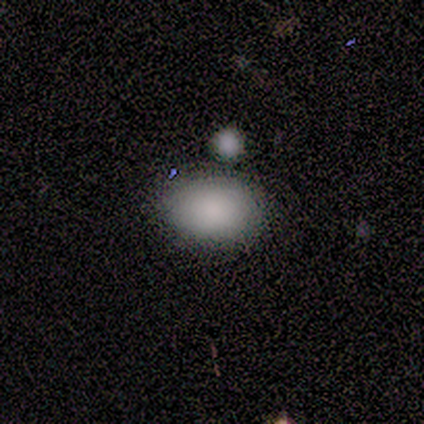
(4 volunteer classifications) Overall: smooth (100%). How rounded: in between (100%). Merging: none (50%, tied with merger).